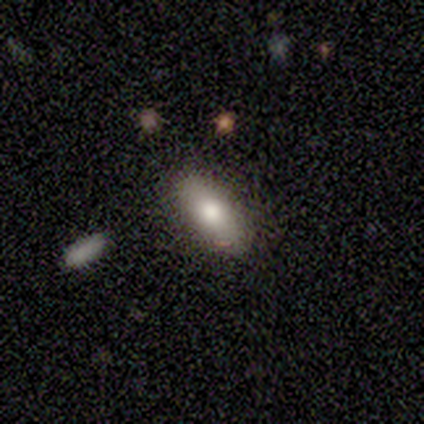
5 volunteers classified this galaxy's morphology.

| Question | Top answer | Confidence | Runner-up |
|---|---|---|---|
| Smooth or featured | smooth | 40% | tied: featured or disk (40%) |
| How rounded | in between | 100% | — |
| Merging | none | 50% | tied: minor disturbance (50%) |